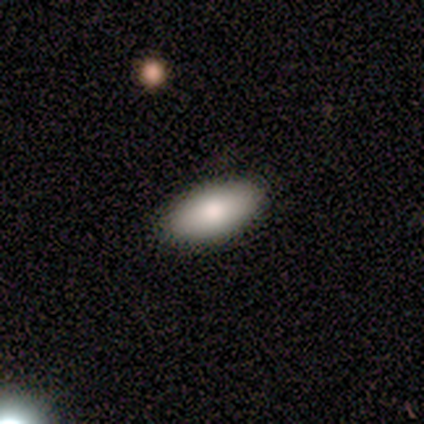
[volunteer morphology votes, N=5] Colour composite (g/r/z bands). It shows a smooth galaxy with no disk features (60%) that is in between round and cigar-shaped (100%). Merging: none (75%).